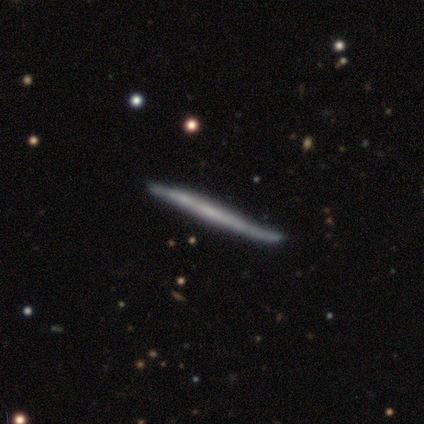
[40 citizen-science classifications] featured or disk 60%, smooth 35%, star or artifact 5%. Down the decision tree: edge-on disk — yes (100%); edge-on bulge — none (88%); merging — none (82%).